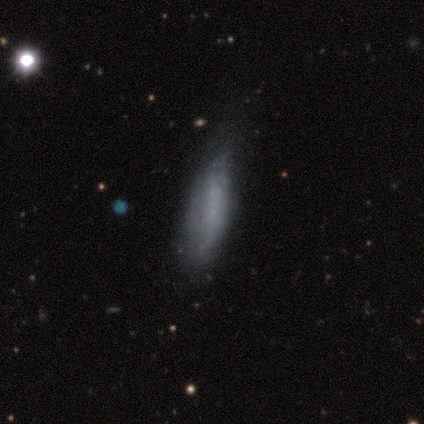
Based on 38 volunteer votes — Overall: featured or disk (58%; smooth 34%). Edge-on disk: no (77%). Bar: no (100%). Spiral arms: no (94%). Bulge size: none (94%). Merging: none (46%; minor disturbance 37%).